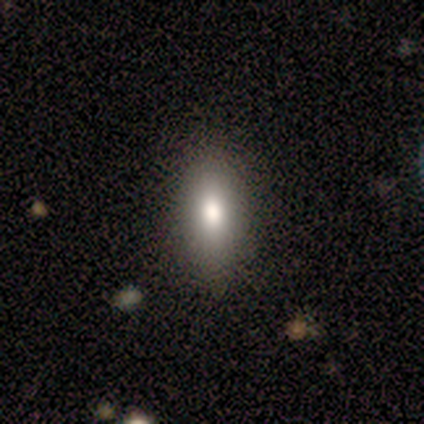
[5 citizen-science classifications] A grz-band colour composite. It shows a smooth galaxy with no disk features (80%) that is cigar-shaped (75%). Merging: none (80%).